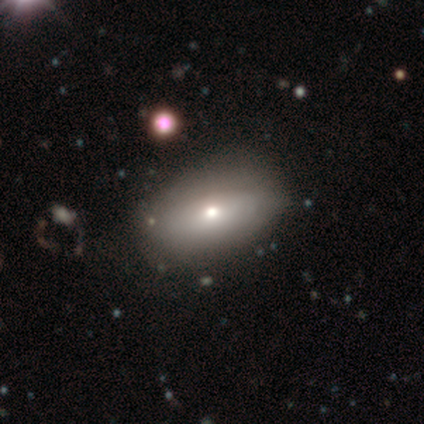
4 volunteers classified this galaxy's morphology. Smooth or featured? smooth (75%)
How rounded? in between (100%)
Merging? none (50%, tied with minor disturbance)